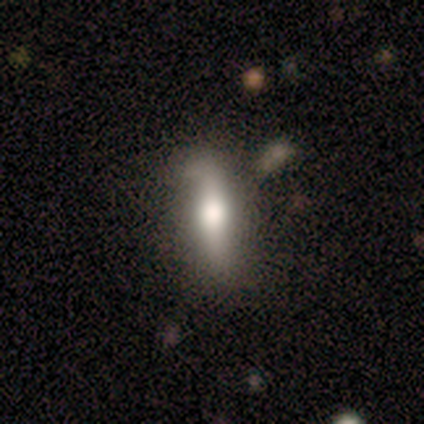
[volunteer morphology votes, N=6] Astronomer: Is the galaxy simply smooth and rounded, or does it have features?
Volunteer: featured or disk — 67%.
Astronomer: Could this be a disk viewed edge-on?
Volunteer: yes — 50%, tied with no at 50%.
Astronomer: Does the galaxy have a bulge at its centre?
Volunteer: rounded — 100%.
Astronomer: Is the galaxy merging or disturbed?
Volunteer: none — 60% (runner-up: minor disturbance, 40%).